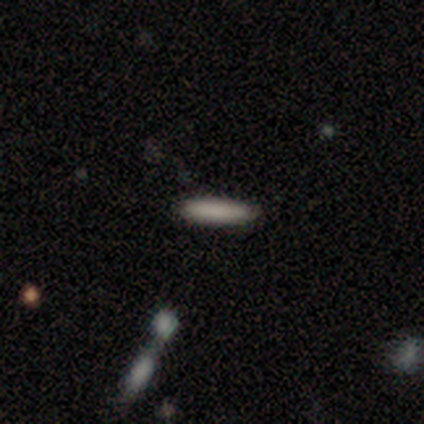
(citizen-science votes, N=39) This appears to be a smooth galaxy with no disk features (87%) that is cigar-shaped (82%). Merging: none (90%).